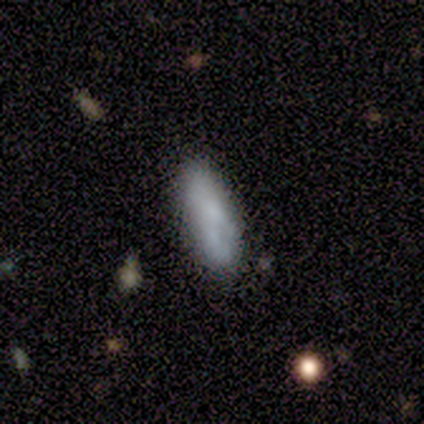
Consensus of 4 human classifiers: Smooth or featured? 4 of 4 (100%) said smooth. How rounded? 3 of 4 (75%) said in between. Merging? 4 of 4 (100%) said none.